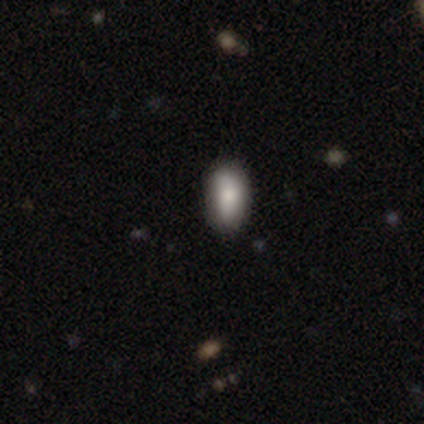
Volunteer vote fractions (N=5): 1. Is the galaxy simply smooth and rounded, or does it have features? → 80% smooth, 20% star or artifact, 0% featured or disk.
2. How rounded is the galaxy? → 100% in between, 0% round, 0% cigar-shaped.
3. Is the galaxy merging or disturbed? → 50% none (tied), 50% minor disturbance (tied), 0% major disturbance, 0% merger.